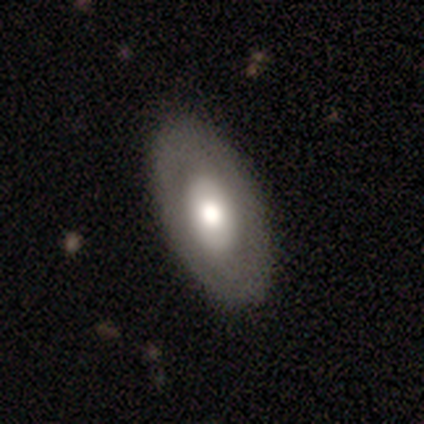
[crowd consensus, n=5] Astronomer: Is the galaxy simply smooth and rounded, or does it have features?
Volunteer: featured or disk — 60% (runner-up: smooth, 40%).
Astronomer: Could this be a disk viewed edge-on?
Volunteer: no — 100%.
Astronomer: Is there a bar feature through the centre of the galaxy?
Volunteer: no — 67%.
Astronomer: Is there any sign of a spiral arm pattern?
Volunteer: no — 100%.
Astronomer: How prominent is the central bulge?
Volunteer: moderate — 100%.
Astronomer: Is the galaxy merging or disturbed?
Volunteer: none — 100%.